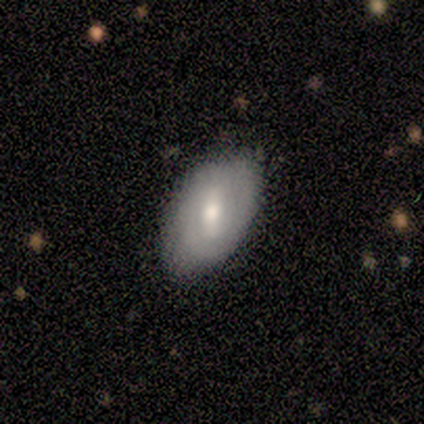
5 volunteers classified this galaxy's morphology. A smooth galaxy with no disk features (60%) that is in between round and cigar-shaped (100%). Merging: minor disturbance (60%).